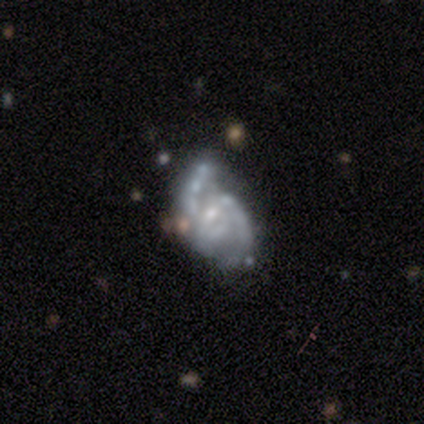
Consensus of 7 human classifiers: smooth_or_featured: featured or disk (p=0.71) [alt: smooth p=0.29]
disk_edge_on: no (p=1.00)
bar: weak (p=0.60) [alt: no p=0.40]
has_spiral_arms: no (p=0.60) [alt: yes p=0.40]
bulge_size: small (p=0.60) [alt: none p=0.40]
merging: merger (p=0.43) [alt: none p=0.29]